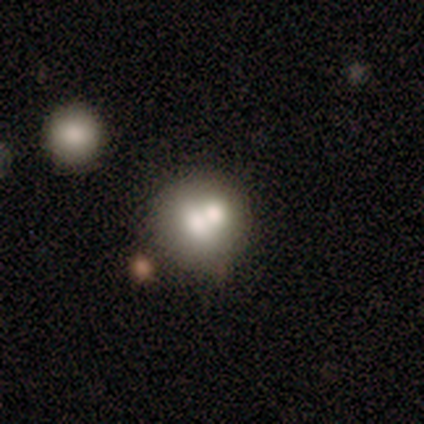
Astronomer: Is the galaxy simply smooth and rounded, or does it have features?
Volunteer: smooth — 40%, tied with star or artifact at 40%.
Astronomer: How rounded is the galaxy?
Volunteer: round — 100%.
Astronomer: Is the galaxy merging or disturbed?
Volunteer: none — 67%.